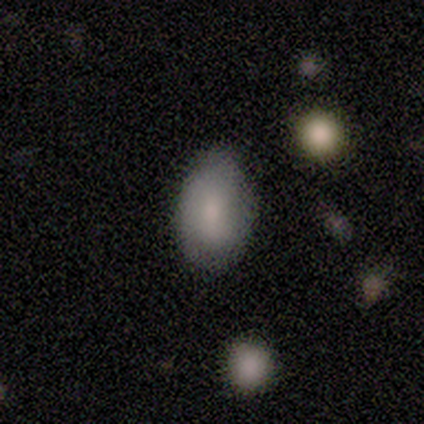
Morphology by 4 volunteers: smooth_or_featured: smooth (p=1.00)
how_rounded: round (p=0.50) [tied with: in between p=0.50]
merging: minor disturbance (p=0.50) [alt: none p=0.25]